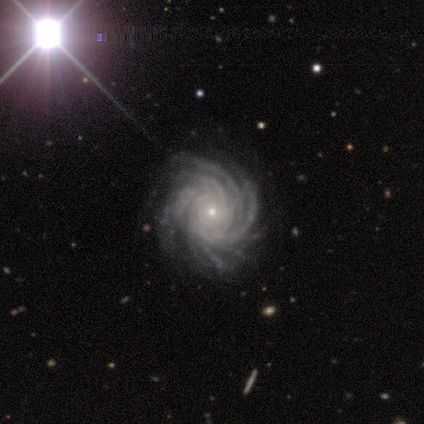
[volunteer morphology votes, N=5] featured or disk 80%, smooth 20%, star or artifact 0%. Down the decision tree: edge-on disk — no (100%); bar — no (75%); spiral arms — yes (100%); spiral arm count — more than 4 (100%); spiral winding — tight (50%, tied with medium); bulge size — moderate (50%, tied with small); merging — none (80%).